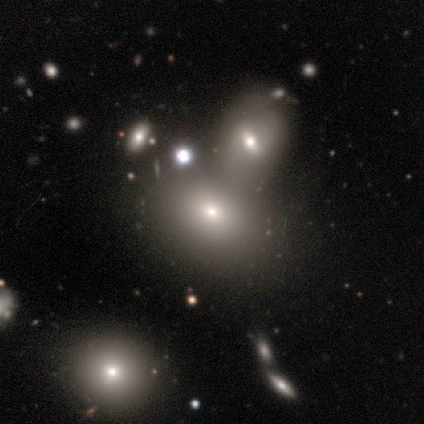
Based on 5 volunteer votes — Morphology: type=smooth (80%); roundness=in between (75%); merging=none (75%).